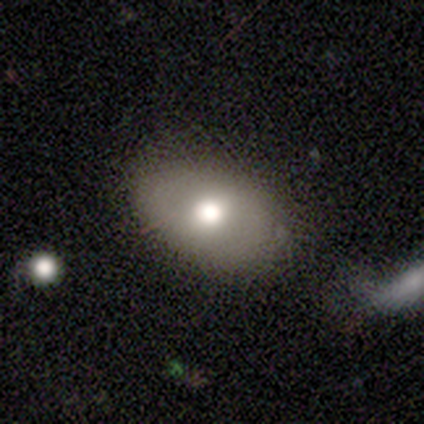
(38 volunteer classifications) A smooth galaxy with no disk features (63%) that is in between round and cigar-shaped (71%).

Vote fractions:
- Smooth or featured? smooth: 63% / featured or disk: 32% / star or artifact: 5%
- How rounded? in between: 71% / round: 29% / cigar-shaped: 0%
- Merging? none: 89% / merger: 6% / minor disturbance: 3% / major disturbance: 3%